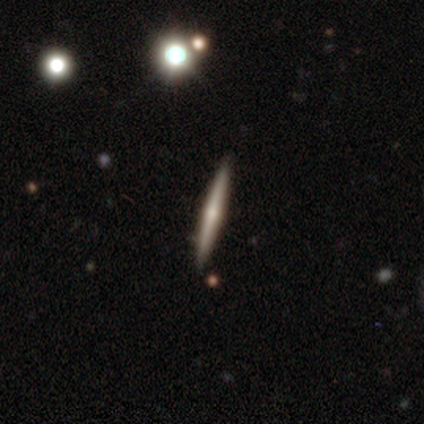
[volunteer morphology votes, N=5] Overall: featured or disk (80%). Edge-on disk: yes (100%). Edge-on bulge: rounded (75%). Merging: none (100%).